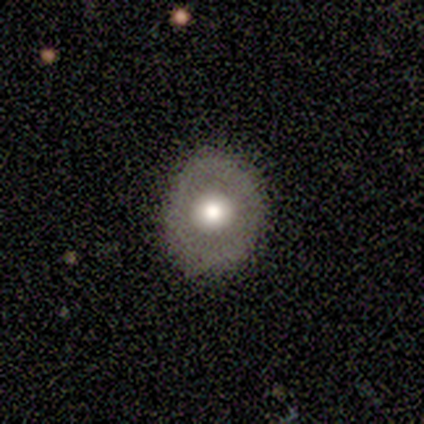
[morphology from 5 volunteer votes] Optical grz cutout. It shows a smooth galaxy with no disk features (60%) that is round (67%). Merging: none (60%).